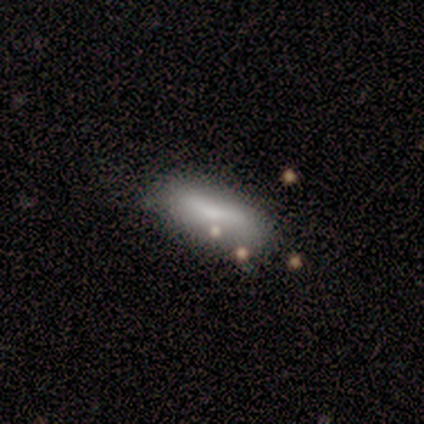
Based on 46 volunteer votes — A smooth galaxy with no disk features (70%) that is in between round and cigar-shaped (66%).

Vote fractions:
- Smooth or featured? smooth: 70% / featured or disk: 28% / star or artifact: 2%
- How rounded? in between: 66% / cigar-shaped: 34% / round: 0%
- Merging? none: 64% / minor disturbance: 20% / major disturbance: 9% / merger: 7%